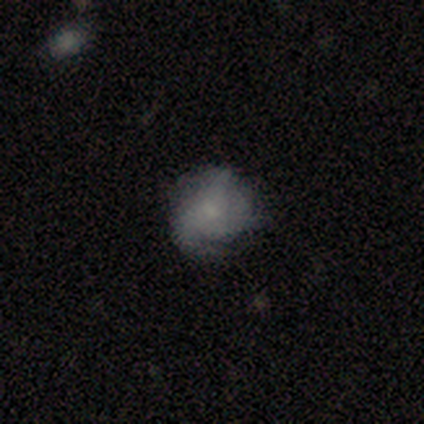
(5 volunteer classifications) Q: Smooth or featured?
A: featured or disk (80%); runner-up: star or artifact (20%)
Q: Edge-on disk?
A: no (100%)
Q: Bar?
A: no (100%)
Q: Spiral arms?
A: yes (75%); runner-up: no (25%)
Q: Spiral winding?
A: tight (33%); tied with: medium (33%); loose (33%)
Q: Spiral arm count?
A: 2 (67%); runner-up: can't tell (33%)
Q: Bulge size?
A: small (75%); runner-up: moderate (25%)
Q: Merging?
A: none (75%); runner-up: minor disturbance (25%)